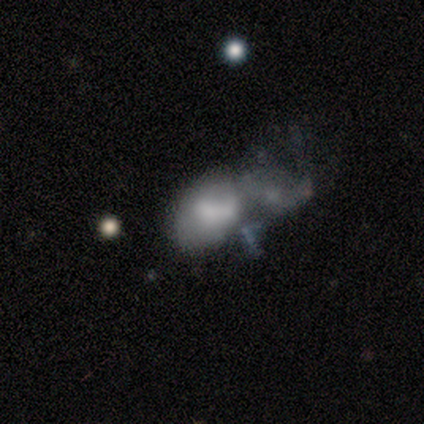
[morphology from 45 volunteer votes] smooth 62%, featured or disk 24%, star or artifact 13%. Down the decision tree: how rounded — in between (86%); merging — merger (44%).